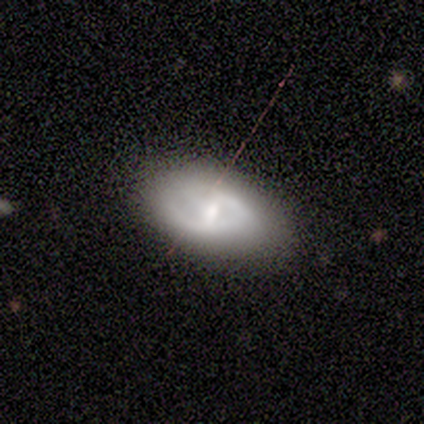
A featured or disk galaxy (80%) with a weak bar (100%), 1 (50%, tied with 2) tight (50%, tied with medium) spiral arms (67%) and a small central bulge (100%). Merging: none (50%).